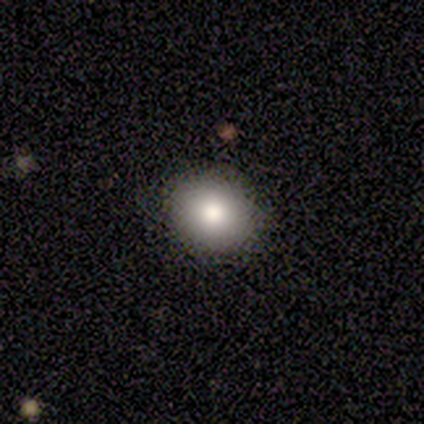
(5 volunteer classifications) smooth_or_featured: smooth (p=1.00)
how_rounded: round (p=0.60) [alt: in between p=0.40]
merging: none (p=0.80) [alt: minor disturbance p=0.20]